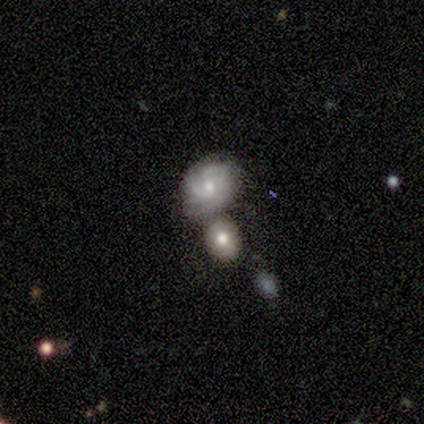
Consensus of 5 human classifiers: This is likely a featured or disk galaxy (60%). It is clearly not viewed edge-on (100%). Bar: clearly weak (100%). Spiral arm pattern: clearly yes (100%). Spiral arm count: marginally 2 (33%, tied with 4 and can't tell). Spiral winding: likely tight (67%). Central bulge: clearly moderate (100%). Merging: marginally none (40%, tied with minor disturbance).